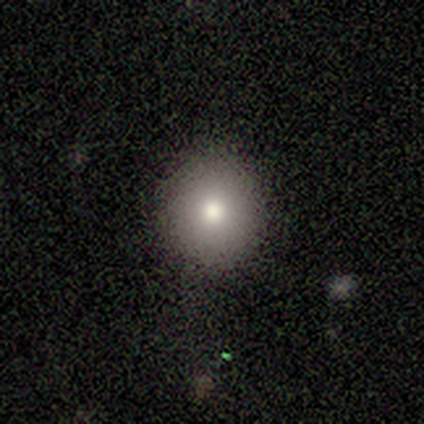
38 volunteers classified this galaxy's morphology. smooth 82%, star or artifact 13%, featured or disk 5%. Down the decision tree: how rounded — round (90%); merging — none (82%).